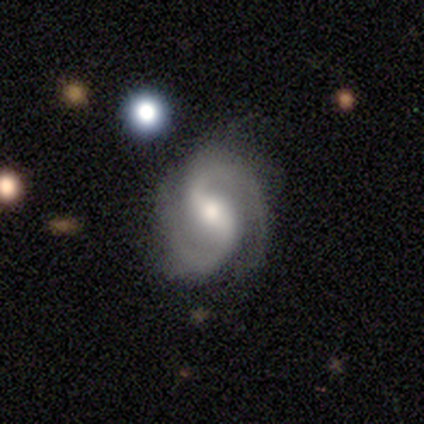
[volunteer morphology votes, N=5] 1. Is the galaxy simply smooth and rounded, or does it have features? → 80% featured or disk, 20% smooth, 0% star or artifact.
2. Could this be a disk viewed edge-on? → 100% no, 0% yes.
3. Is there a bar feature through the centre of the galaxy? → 100% weak, 0% strong, 0% no.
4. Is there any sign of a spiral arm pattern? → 100% yes, 0% no.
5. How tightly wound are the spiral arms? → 75% loose, 25% medium, 0% tight.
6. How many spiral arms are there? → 75% 2, 25% 3, 0% 1, 0% 4, 0% more than 4, 0% can't tell.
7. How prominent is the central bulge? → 100% moderate, 0% dominant, 0% large, 0% small, 0% none.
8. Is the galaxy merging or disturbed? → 80% none, 20% major disturbance, 0% minor disturbance, 0% merger.